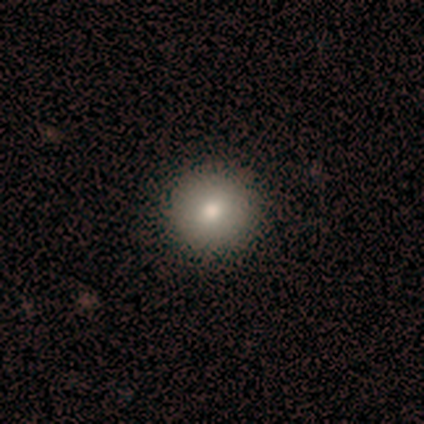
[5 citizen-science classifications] A smooth galaxy with no disk features (40%, tied with star or artifact) that is round (50%, tied with in between).

Vote fractions:
- Smooth or featured? smooth: 40% (tied) / star or artifact: 40% (tied) / featured or disk: 20%
- How rounded? round: 50% (tied) / in between: 50% (tied) / cigar-shaped: 0%
- Merging? none: 100% / minor disturbance: 0% / major disturbance: 0% / merger: 0%